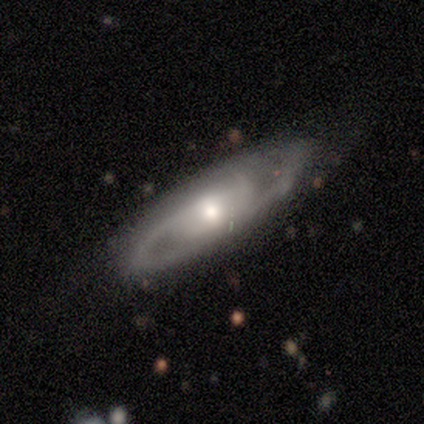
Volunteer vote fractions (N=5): This appears to be a featured or disk galaxy (80%) with a strong bar (50%, tied with no), 2 (75%) tight (50%, tied with loose) spiral arms (100%) and a moderate central bulge (50%). Merging: none (60%).